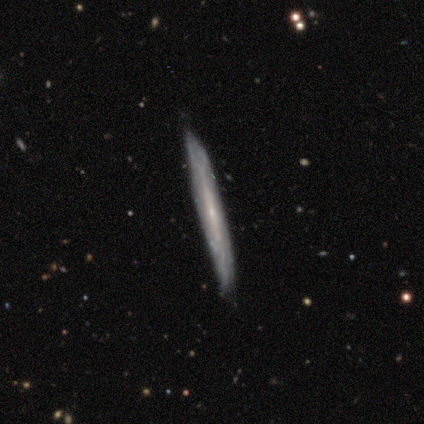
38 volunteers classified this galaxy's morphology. A featured or disk galaxy (58%) viewed edge-on (82%) with no central bulge (61%). Merging: none (89%).